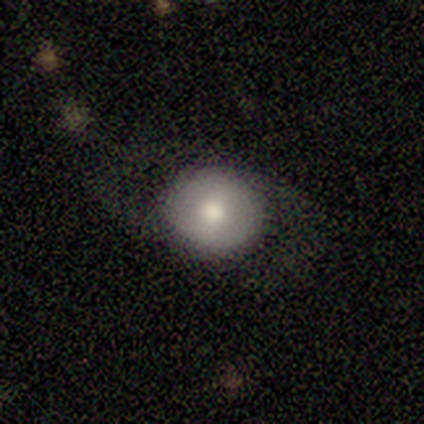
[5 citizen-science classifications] smooth-or-featured: smooth: 60% | featured or disk: 40% | star or artifact: 0%
  how-rounded: round: 67% | in between: 33% | cigar-shaped: 0%
  merging: none: 100% | minor disturbance: 0% | major disturbance: 0% | merger: 0%